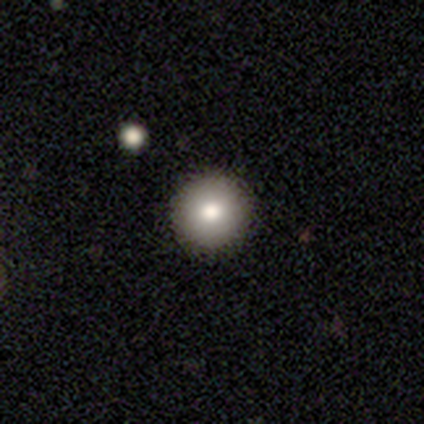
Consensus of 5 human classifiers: Smooth or featured? 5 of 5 (100%) said smooth. How rounded? 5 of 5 (100%) said round. Merging? 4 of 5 (80%) said none.